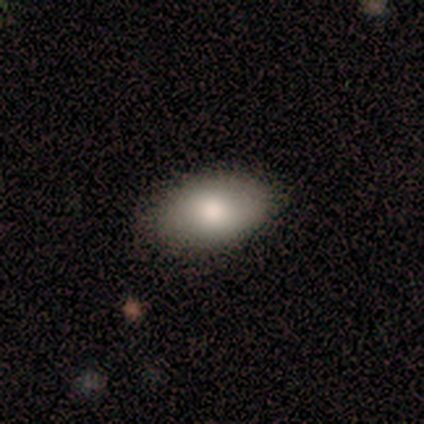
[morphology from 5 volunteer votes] Smooth or featured: smooth — 100%
How rounded: in between — 100%
Merging: none — 100%